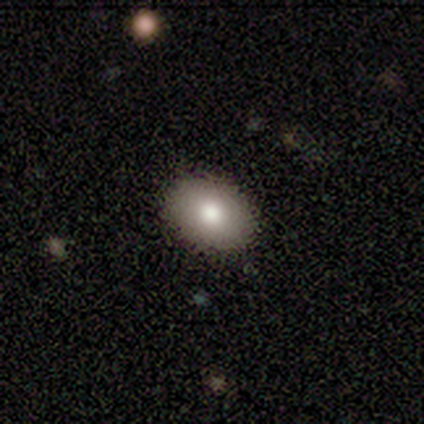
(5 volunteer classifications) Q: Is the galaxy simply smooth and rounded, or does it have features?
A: smooth — 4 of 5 (80%).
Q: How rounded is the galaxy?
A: in between — 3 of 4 (75%).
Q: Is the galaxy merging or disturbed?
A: none — 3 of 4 (75%).